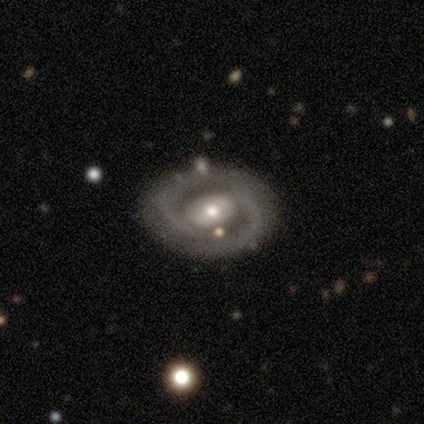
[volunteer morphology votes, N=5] Smooth or featured: featured or disk — 100%
Edge-on disk: no — 100%
Bar: strong — 40% (tied with no — 40%)
Spiral arms: yes — 100%
Spiral winding: tight — 40% (tied with medium — 40%)
Spiral arm count: 2 — 100%
Bulge size: moderate — 60% (small — 40%)
Merging: none — 100%